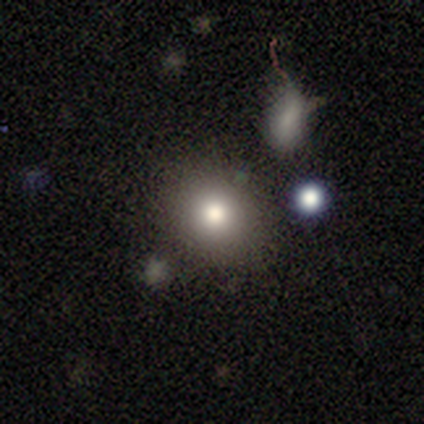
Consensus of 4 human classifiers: Smooth or featured?
  - smooth: 50% *
  - featured or disk: 25%
  - star or artifact: 25%
How rounded?
  - in between: 100% *
  - round: 0%
  - cigar-shaped: 0%
Merging?
  - none: 100% *
  - minor disturbance: 0%
  - major disturbance: 0%
  - merger: 0%